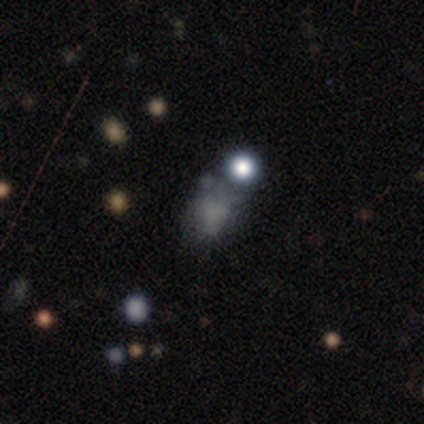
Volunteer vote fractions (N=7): Smooth or featured: smooth — 71% (featured or disk — 14%)
How rounded: in between — 80% (round — 20%)
Merging: minor disturbance — 33% (tied with major disturbance — 33%)